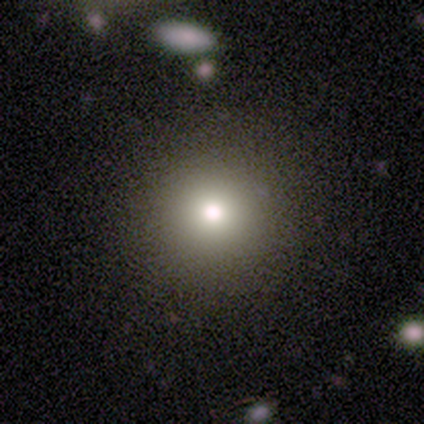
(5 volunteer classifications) A smooth galaxy with no disk features (60%) that is round (100%).

Vote fractions:
- Smooth or featured? smooth: 60% / featured or disk: 40% / star or artifact: 0%
- How rounded? round: 100% / in between: 0% / cigar-shaped: 0%
- Merging? none: 80% / minor disturbance: 20% / major disturbance: 0% / merger: 0%